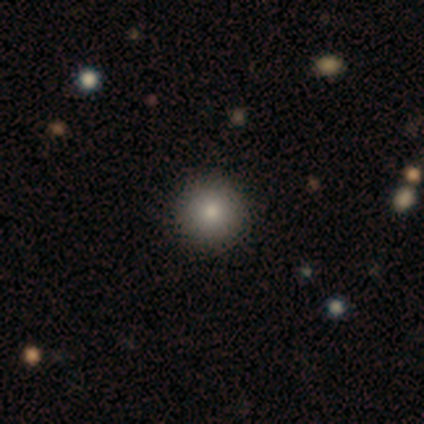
smooth-or-featured: smooth: 60% | star or artifact: 40% | featured or disk: 0%
  how-rounded: round: 100% | in between: 0% | cigar-shaped: 0%
  merging: none: 100% | minor disturbance: 0% | major disturbance: 0% | merger: 0%